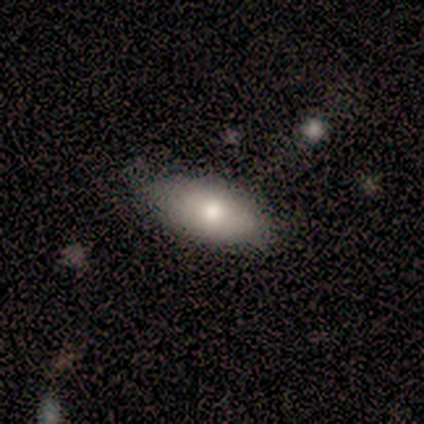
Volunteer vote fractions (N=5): Consensus on every question: smooth or featured — smooth (100%); how rounded — in between (100%); merging — none (100%).